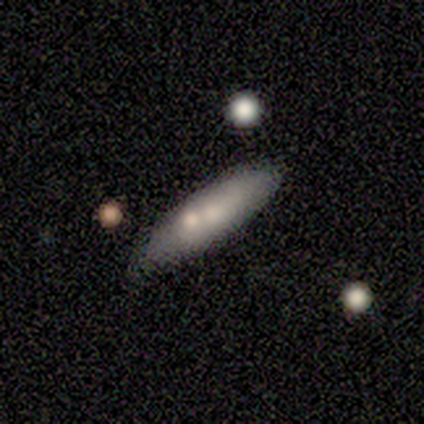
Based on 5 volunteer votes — Q: Smooth or featured?
A: smooth (80%); runner-up: featured or disk (20%)
Q: How rounded?
A: cigar-shaped (75%); runner-up: in between (25%)
Q: Merging?
A: none (80%); runner-up: merger (20%)